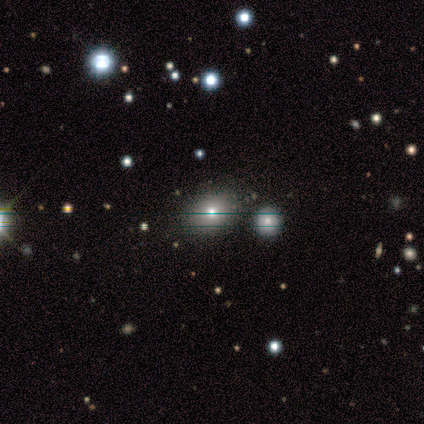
Overall: star or artifact (48%; featured or disk 29%).